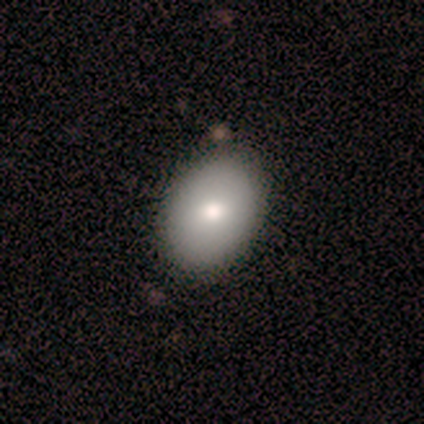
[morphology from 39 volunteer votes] Smooth or featured? smooth (79%)
How rounded? in between (74%)
Merging? none (69%)